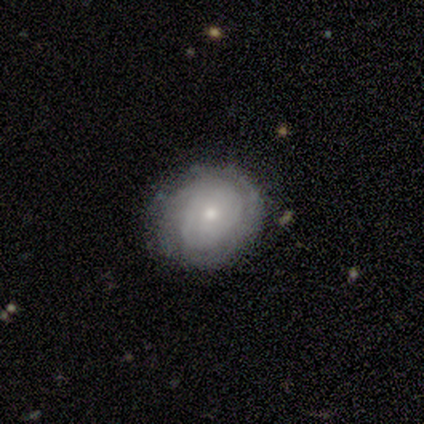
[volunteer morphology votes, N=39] Smooth or featured? 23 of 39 (59%) said featured or disk. Edge-on disk? 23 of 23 (100%) said no. Bar? 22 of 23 (96%) said no. Spiral arms? 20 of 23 (87%) said yes. Spiral winding? 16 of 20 (80%) said tight. Spiral arm count? 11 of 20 (55%) said can't tell. Bulge size? 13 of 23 (57%) said small. Merging? 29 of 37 (78%) said none.